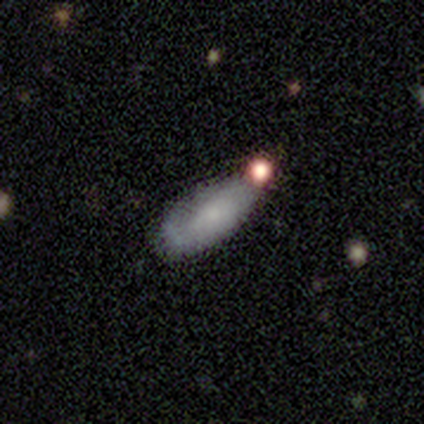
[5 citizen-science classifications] This appears to be a smooth galaxy with no disk features (60%) that is in between round and cigar-shaped (67%). Merging: none (60%).